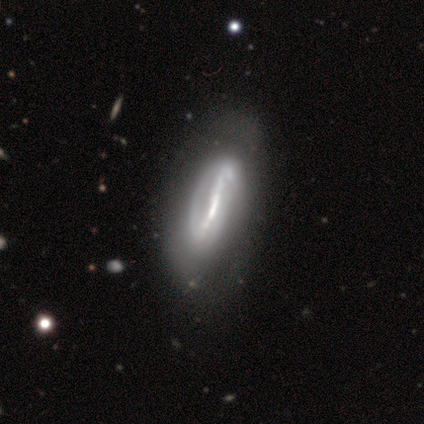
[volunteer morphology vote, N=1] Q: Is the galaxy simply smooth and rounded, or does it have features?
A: featured or disk — 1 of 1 (100%).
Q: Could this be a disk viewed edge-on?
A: no — 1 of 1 (100%).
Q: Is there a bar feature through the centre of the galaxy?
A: strong — 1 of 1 (100%).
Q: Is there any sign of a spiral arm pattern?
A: yes — 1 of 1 (100%).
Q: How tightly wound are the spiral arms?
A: loose — 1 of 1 (100%).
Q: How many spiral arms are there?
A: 2 — 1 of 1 (100%).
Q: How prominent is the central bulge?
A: moderate — 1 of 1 (100%).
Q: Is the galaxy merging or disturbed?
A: none — 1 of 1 (100%).